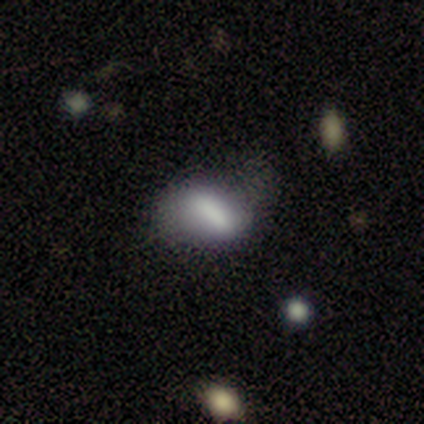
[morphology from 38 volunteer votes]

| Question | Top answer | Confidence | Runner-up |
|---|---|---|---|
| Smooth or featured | smooth | 53% | featured or disk (32%) |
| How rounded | in between | 75% | round (15%) |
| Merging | none | 56% | minor disturbance (28%) |